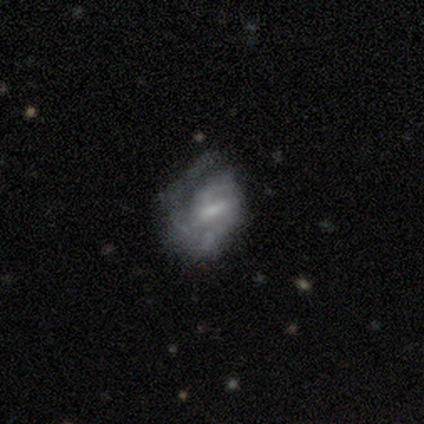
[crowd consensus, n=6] Q: Smooth or featured?
A: featured or disk (83%); runner-up: smooth (17%)
Q: Edge-on disk?
A: no (100%)
Q: Bar?
A: weak (80%); runner-up: strong (20%)
Q: Spiral arms?
A: yes (100%)
Q: Spiral winding?
A: tight (40%); tied with: medium (40%)
Q: Spiral arm count?
A: 2 (60%); runner-up: 3 (20%)
Q: Bulge size?
A: small (100%)
Q: Merging?
A: none (67%); runner-up: minor disturbance (17%)